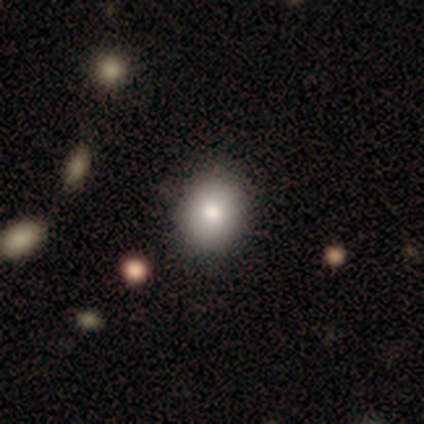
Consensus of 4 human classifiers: Smooth or featured? smooth (75%)
How rounded? in between (67%)
Merging? none (75%)